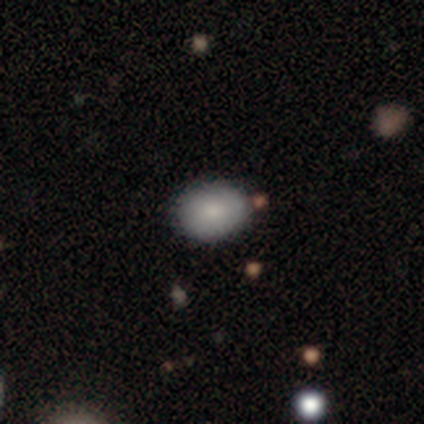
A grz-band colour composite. It shows a smooth galaxy with no disk features (80%) that is in between round and cigar-shaped (100%). Merging: none (100%).